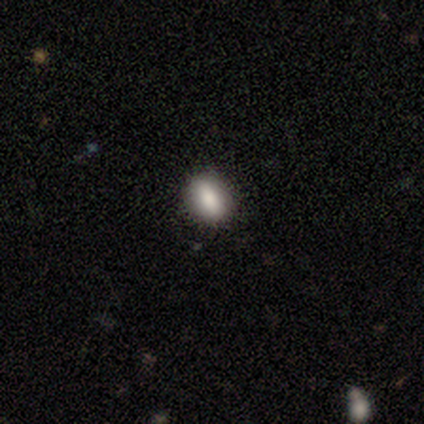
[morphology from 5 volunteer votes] A smooth galaxy with no disk features (100%) that is in between round and cigar-shaped (60%). Merging: none (100%).